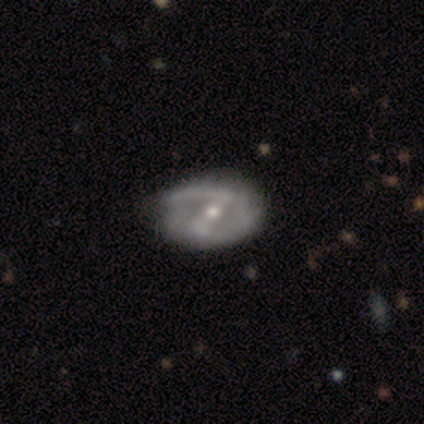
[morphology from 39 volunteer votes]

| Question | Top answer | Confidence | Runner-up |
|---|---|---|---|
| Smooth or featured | featured or disk | 90% | smooth (8%) |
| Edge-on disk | no | 94% | yes (6%) |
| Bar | strong | 55% | weak (33%) |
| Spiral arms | yes | 79% | no (21%) |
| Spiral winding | medium | 50% | loose (35%) |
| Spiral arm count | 2 | 81% | can't tell (15%) |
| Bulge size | moderate | 73% | small (18%) |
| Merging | none | 55% | minor disturbance (13%) |